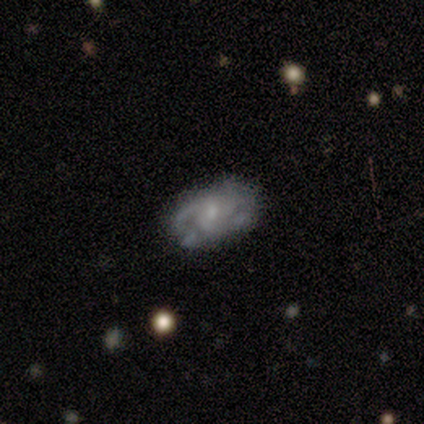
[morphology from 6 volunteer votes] Smooth or featured?
  - featured or disk: 83% *
  - smooth: 17%
  - star or artifact: 0%
Edge-on disk?
  - no: 100% *
  - yes: 0%
Bar?
  - no: 80% *
  - weak: 20%
  - strong: 0%
Spiral arms?
  - yes: 100% *
  - no: 0%
Spiral winding?
  - medium: 60% *
  - tight: 40%
  - loose: 0%
Spiral arm count?
  - 2: 40% * (tied)
  - can't tell: 40% * (tied)
  - 3: 20%
  - 1: 0%
  - 4: 0%
  - more than 4: 0%
Bulge size?
  - small: 80% *
  - moderate: 20%
  - dominant: 0%
  - large: 0%
  - none: 0%
Merging?
  - none: 83% *
  - minor disturbance: 17%
  - major disturbance: 0%
  - merger: 0%